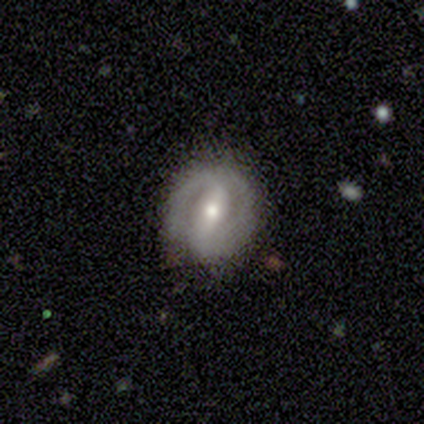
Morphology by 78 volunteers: Smooth or featured? 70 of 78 (90%) said featured or disk. Edge-on disk? 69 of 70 (99%) said no. Bar? 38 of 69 (55%) said strong. Spiral arms? 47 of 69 (68%) said yes. Spiral winding? 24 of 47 (51%) said tight. Spiral arm count? 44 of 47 (94%) said 2. Bulge size? 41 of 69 (59%) said moderate. Merging? 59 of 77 (77%) said none.